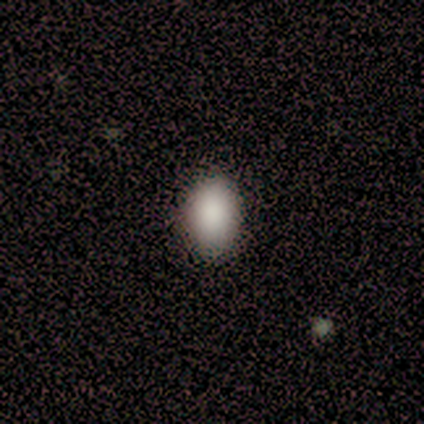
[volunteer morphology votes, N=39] smooth 92%, star or artifact 5%, featured or disk 3%. Down the decision tree: how rounded — in between (86%); merging — none (65%).